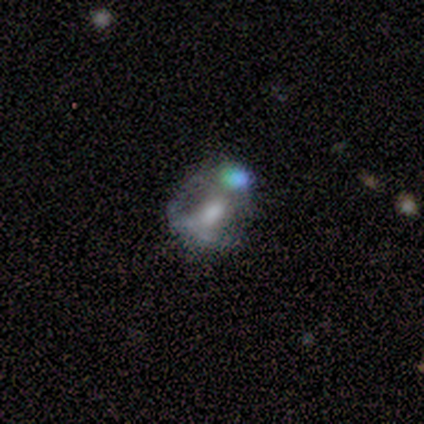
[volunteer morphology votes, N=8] Smooth or featured? featured or disk (50%)
Edge-on disk? no (100%)
Bar? weak (50%, tied with no)
Spiral arms? no (75%)
Bulge size? moderate (75%)
Merging? none (40%, tied with merger)